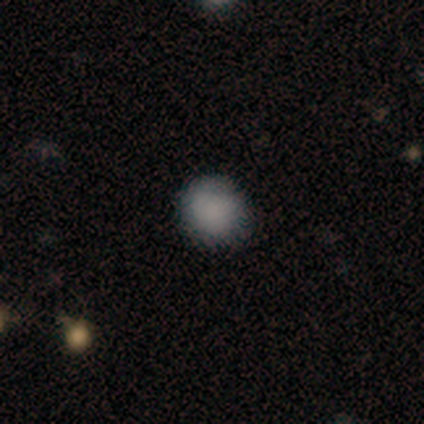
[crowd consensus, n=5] Smooth or featured? smooth (100%)
How rounded? round (80%)
Merging? none (60%)